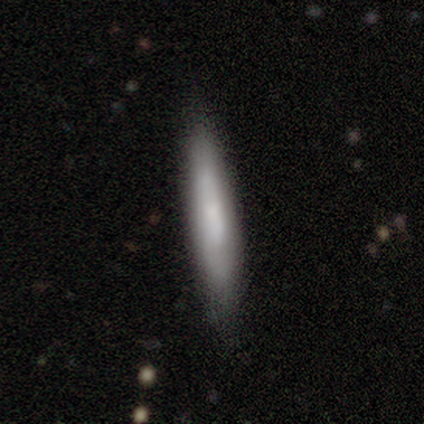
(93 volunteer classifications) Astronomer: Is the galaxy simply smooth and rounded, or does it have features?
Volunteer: smooth — 68%.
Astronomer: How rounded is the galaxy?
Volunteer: cigar-shaped — 94%.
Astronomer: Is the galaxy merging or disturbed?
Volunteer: none — 78%.